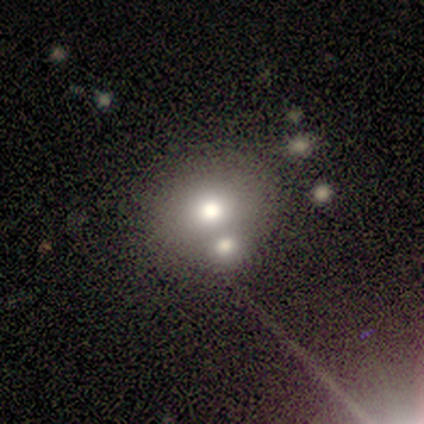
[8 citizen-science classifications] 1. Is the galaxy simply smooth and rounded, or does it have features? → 75% smooth, 25% featured or disk, 0% star or artifact.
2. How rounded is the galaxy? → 67% round, 33% in between, 0% cigar-shaped.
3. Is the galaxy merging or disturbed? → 50% merger, 38% none, 12% major disturbance, 0% minor disturbance.